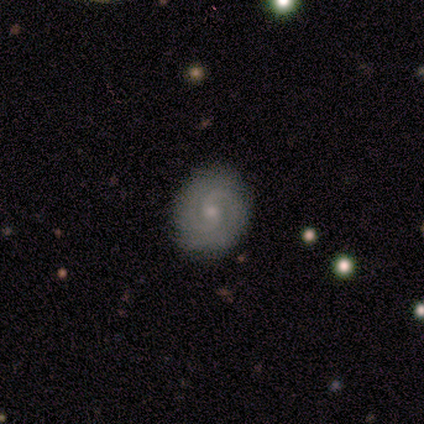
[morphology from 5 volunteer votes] Q: Smooth or featured?
A: featured or disk (80%); runner-up: smooth (20%)
Q: Edge-on disk?
A: no (100%)
Q: Bar?
A: no (100%)
Q: Spiral arms?
A: yes (100%)
Q: Spiral winding?
A: tight (75%); runner-up: medium (25%)
Q: Spiral arm count?
A: 2 (75%); runner-up: 3 (25%)
Q: Bulge size?
A: small (75%); runner-up: moderate (25%)
Q: Merging?
A: none (100%)